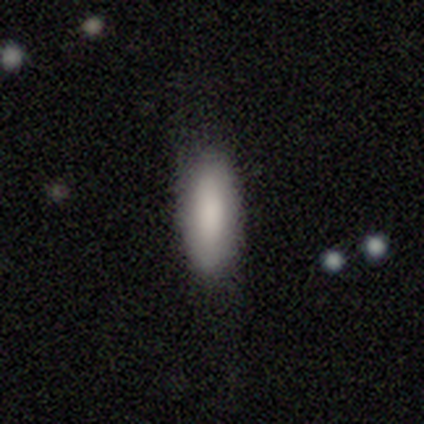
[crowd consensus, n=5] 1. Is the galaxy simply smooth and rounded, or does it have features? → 100% smooth, 0% featured or disk, 0% star or artifact.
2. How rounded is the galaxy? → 80% in between, 20% cigar-shaped, 0% round.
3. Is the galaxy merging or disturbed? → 80% none, 20% minor disturbance, 0% major disturbance, 0% merger.